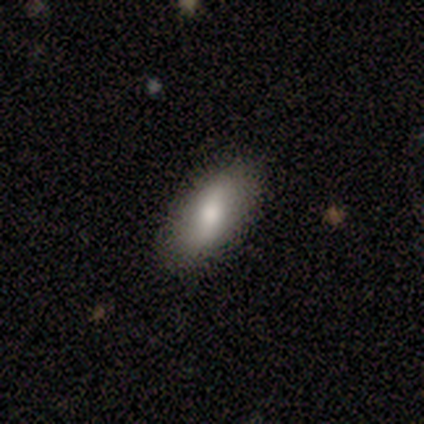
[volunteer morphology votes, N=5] Smooth or featured?
  - smooth: 80% *
  - featured or disk: 20%
  - star or artifact: 0%
How rounded?
  - in between: 75% *
  - cigar-shaped: 25%
  - round: 0%
Merging?
  - none: 60% *
  - minor disturbance: 20%
  - major disturbance: 20%
  - merger: 0%